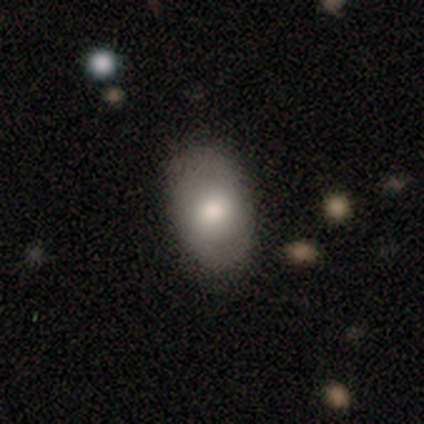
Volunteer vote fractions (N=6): A featured or disk galaxy (67%) with no bar (75%), 2 (50%, tied with can't tell) tight (50%, tied with medium) spiral arms (50%, tied with no) and a moderate central bulge (75%). Merging: none (83%).